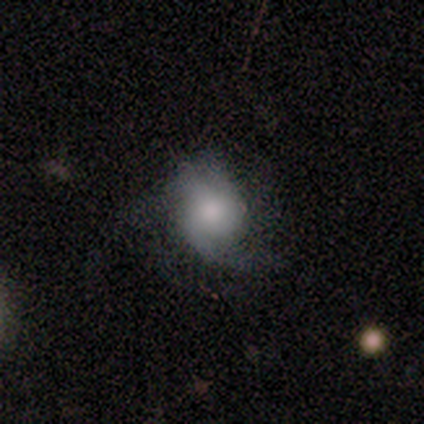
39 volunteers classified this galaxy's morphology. A smooth galaxy with no disk features (49%) that is in between round and cigar-shaped (58%).

Vote fractions:
- Smooth or featured? smooth: 49% / featured or disk: 44% / star or artifact: 8%
- How rounded? in between: 58% / round: 42% / cigar-shaped: 0%
- Merging? none: 56% / minor disturbance: 22% / major disturbance: 22% / merger: 0%